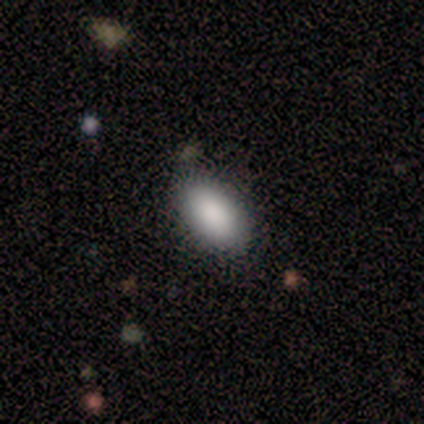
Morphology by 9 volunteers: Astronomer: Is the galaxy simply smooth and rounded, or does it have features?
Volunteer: smooth — 100%.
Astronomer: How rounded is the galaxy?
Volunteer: in between — 100%.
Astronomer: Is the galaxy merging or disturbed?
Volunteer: none — 89%.